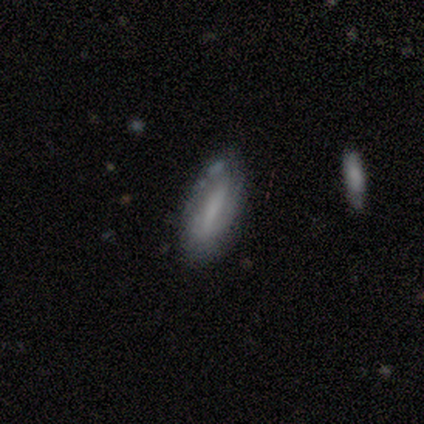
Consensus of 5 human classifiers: smooth-or-featured: featured or disk: 60% | smooth: 40% | star or artifact: 0%
  disk-edge-on: no: 100% | yes: 0%
    bar: strong: 67% | weak: 33% | no: 0%
    has-spiral-arms: no: 100% | yes: 0%
    bulge-size: none: 100% | dominant: 0% | large: 0% | moderate: 0% | small: 0%
  merging: none: 80% | major disturbance: 20% | minor disturbance: 0% | merger: 0%